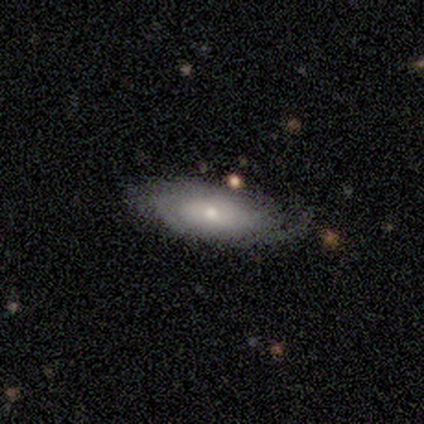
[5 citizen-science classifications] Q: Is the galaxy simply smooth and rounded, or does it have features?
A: featured or disk — 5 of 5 (100%).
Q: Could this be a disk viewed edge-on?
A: no — 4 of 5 (80%).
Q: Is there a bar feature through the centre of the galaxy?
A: no — 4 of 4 (100%).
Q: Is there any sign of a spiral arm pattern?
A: yes — 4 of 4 (100%).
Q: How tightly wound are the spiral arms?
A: tight — 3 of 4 (75%).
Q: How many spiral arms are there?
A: can't tell — 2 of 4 (50%).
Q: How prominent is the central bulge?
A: moderate — 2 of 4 (50%, tied with small).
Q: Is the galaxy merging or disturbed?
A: none — 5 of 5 (100%).